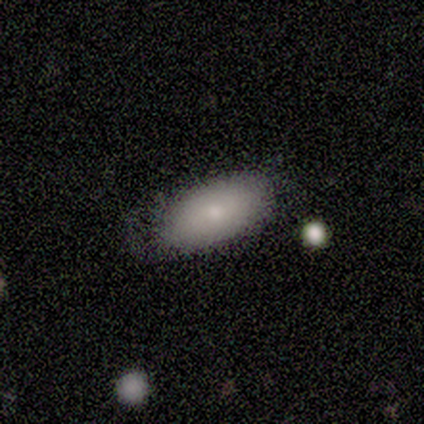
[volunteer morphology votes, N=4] This appears to be a smooth galaxy with no disk features (50%) that is in between round and cigar-shaped (100%). Merging: none (67%).